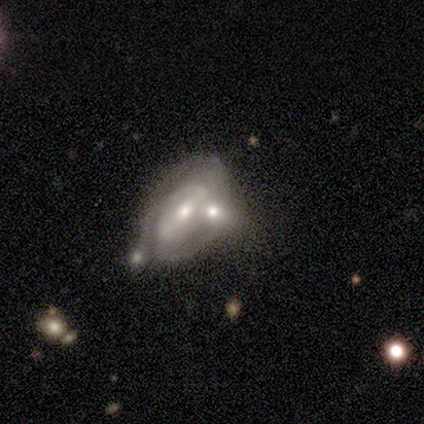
Smooth or featured? featured or disk (85%)
Edge-on disk? no (91%)
Bar? weak (42%)
Spiral arms? yes (84%)
Spiral winding? tight (42%)
Spiral arm count? 2 (58%)
Bulge size? moderate (65%)
Merging? merger (50%)